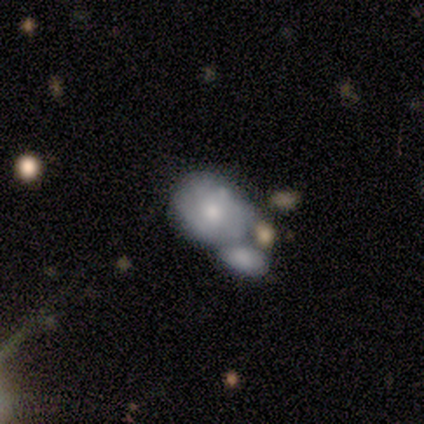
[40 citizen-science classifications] Smooth or featured?
  - smooth: 48% * (tied)
  - featured or disk: 48% * (tied)
  - star or artifact: 5%
How rounded?
  - in between: 68% *
  - round: 26%
  - cigar-shaped: 5%
Merging?
  - merger: 66% *
  - none: 26%
  - minor disturbance: 8%
  - major disturbance: 0%